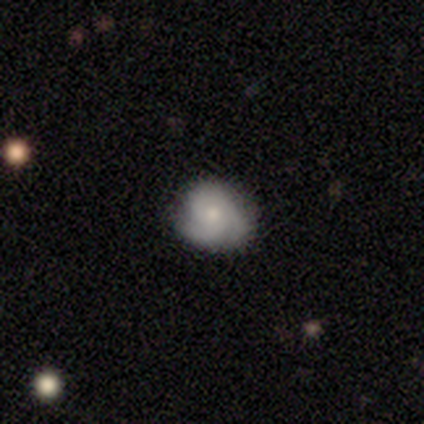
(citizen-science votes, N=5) A smooth galaxy with no disk features (40%, tied with star or artifact) that is round (100%).

Vote fractions:
- Smooth or featured? smooth: 40% (tied) / star or artifact: 40% (tied) / featured or disk: 20%
- How rounded? round: 100% / in between: 0% / cigar-shaped: 0%
- Merging? none: 67% / minor disturbance: 33% / major disturbance: 0% / merger: 0%